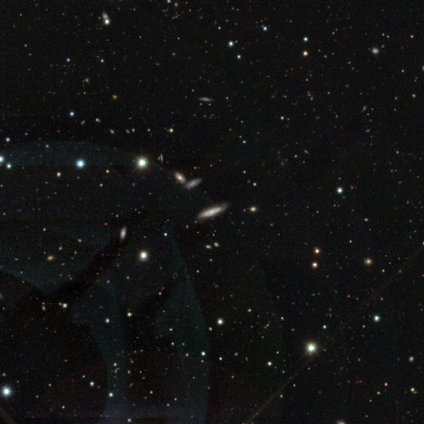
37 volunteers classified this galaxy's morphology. featured or disk 57%, star or artifact 32%, smooth 11%. Down the decision tree: edge-on disk — yes (76%); edge-on bulge — rounded (75%); merging — none (88%).